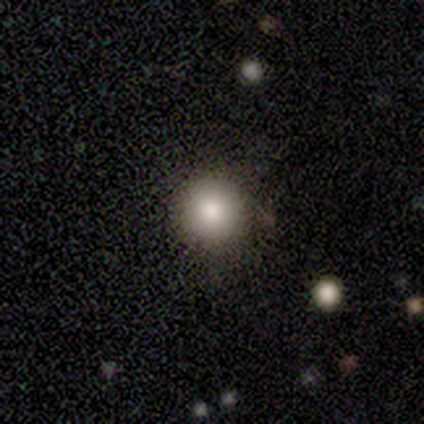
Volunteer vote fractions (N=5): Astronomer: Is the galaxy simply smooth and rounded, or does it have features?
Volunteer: smooth — 80%.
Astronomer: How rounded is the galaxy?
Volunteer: round — 100%.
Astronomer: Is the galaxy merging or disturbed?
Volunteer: none — 75%.